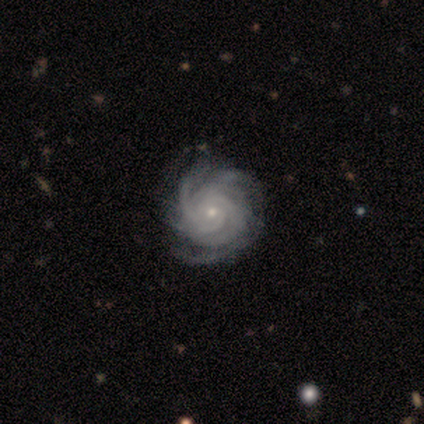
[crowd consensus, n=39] Smooth or featured? featured or disk (97%)
Edge-on disk? no (100%)
Bar? no (87%)
Spiral arms? yes (97%)
Spiral winding? tight (89%)
Spiral arm count? can't tell (27%)
Bulge size? small (71%)
Merging? none (56%)